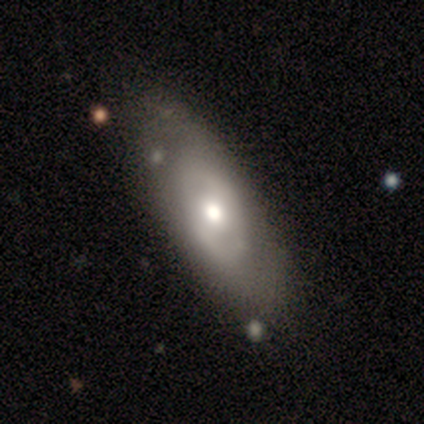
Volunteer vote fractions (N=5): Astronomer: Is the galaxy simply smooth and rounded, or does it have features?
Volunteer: featured or disk — 80%.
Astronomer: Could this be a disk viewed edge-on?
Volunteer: no — 75%.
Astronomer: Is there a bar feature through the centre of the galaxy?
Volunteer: no — 67%.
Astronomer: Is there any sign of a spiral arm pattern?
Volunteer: no — 100%.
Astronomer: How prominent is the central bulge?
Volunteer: moderate — 67%.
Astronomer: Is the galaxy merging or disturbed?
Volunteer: none — 80%.